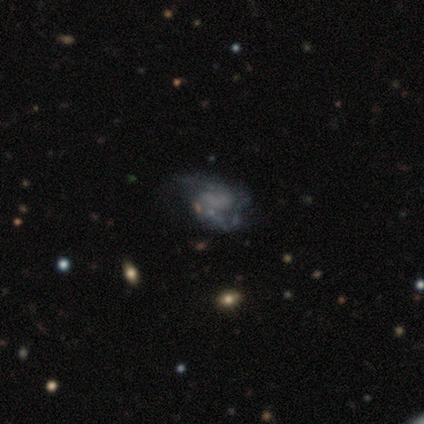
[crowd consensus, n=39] A featured or disk galaxy (72%) with no bar (79%), 2 (64%) medium (43%) spiral arms (50%, tied with no) and no central bulge (79%).

Vote fractions:
- Smooth or featured? featured or disk: 72% / star or artifact: 18% / smooth: 10%
- Edge-on disk? no: 100% / yes: 0%
- Bar? no: 79% / weak: 14% / strong: 7%
- Spiral arms? yes: 50% (tied) / no: 50% (tied)
- Spiral winding? medium: 43% / loose: 36% / tight: 21%
- Spiral arm count? 2: 64% / can't tell: 36% / 1: 0% / 3: 0% / 4: 0% / more than 4: 0%
- Bulge size? none: 79% / moderate: 18% / small: 4% / dominant: 0% / large: 0%
- Merging? none: 41% / major disturbance: 34% / minor disturbance: 25% / merger: 0%